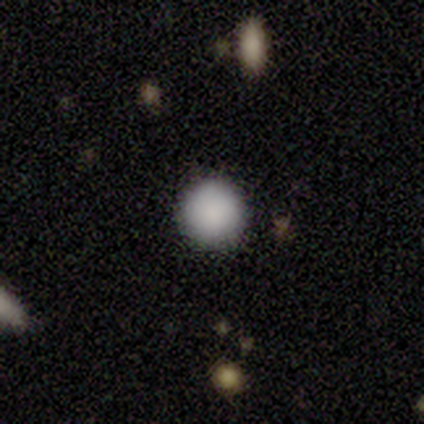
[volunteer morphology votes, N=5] Smooth or featured: smooth — 80% (star or artifact — 20%)
How rounded: round — 100%
Merging: none — 100%